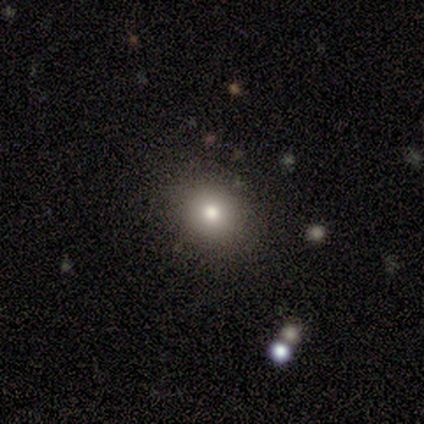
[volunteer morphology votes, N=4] This appears to be a smooth galaxy with no disk features (50%, tied with featured or disk) that is round (100%). Merging: none (100%).